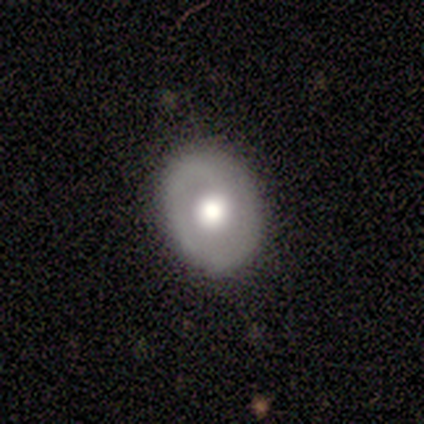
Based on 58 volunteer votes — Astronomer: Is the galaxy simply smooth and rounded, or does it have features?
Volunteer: featured or disk — 62%.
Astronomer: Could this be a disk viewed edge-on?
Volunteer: no — 97%.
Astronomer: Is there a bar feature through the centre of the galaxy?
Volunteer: no — 86%.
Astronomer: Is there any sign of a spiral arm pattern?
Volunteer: yes — 54% (runner-up: no, 46%).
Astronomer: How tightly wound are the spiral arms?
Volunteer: tight — 58% (runner-up: medium, 37%).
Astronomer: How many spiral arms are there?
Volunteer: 1 — 47% (runner-up: 2, 32%).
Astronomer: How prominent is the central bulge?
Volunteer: large — 46% (runner-up: moderate, 37%).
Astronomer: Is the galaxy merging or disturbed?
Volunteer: none — 84%.